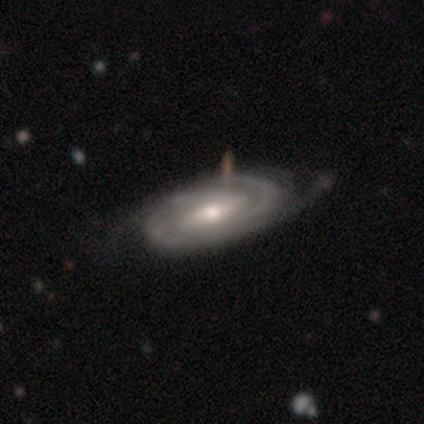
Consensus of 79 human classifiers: Morphology: type=featured or disk (95%); edge-on=no (95%); bar=weak (52%); spiral arms=yes (99%); winding=tight (66%); arm count=2 (37%); bulge=moderate (77%); merging=none (35%).